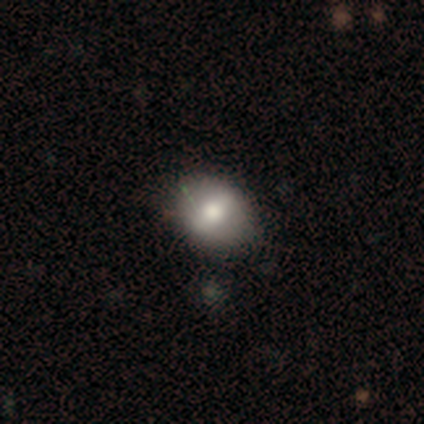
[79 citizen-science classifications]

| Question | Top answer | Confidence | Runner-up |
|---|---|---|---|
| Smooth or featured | smooth | 65% | featured or disk (19%) |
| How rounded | in between | 69% | round (29%) |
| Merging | none | 47% | minor disturbance (15%) |